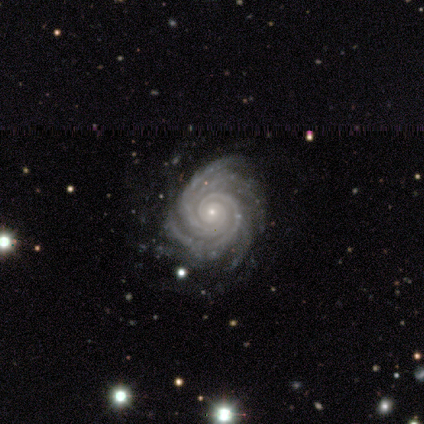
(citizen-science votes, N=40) This appears to be a featured or disk galaxy (95%) with no bar (71%), 4 (51%) tight (89%) spiral arms (97%) and a small central bulge (79%). Merging: none (90%).